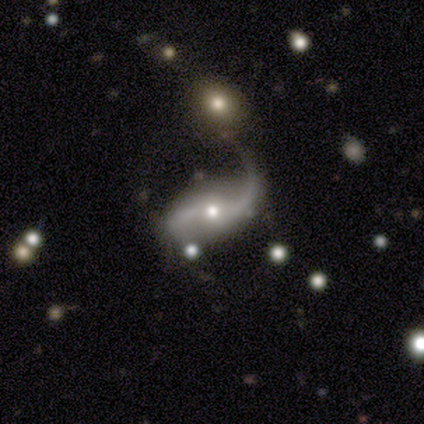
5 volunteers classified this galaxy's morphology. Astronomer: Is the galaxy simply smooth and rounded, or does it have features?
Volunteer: featured or disk — 100%.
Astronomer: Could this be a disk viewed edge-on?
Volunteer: no — 100%.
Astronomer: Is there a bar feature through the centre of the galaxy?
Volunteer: no — 60% (runner-up: strong, 40%).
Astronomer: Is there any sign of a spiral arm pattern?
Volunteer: yes — 100%.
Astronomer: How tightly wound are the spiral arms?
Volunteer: loose — 80%.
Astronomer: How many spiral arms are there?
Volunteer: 2 — 100%.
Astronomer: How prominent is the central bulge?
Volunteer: moderate — 60% (runner-up: small, 40%).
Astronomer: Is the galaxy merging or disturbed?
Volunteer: minor disturbance — 40%, tied with merger at 40%.